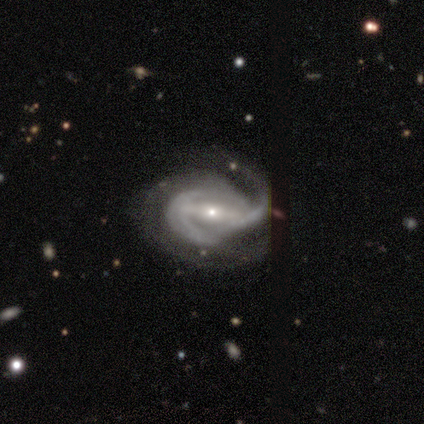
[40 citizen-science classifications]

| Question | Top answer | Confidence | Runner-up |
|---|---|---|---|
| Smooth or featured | featured or disk | 88% | star or artifact (12%) |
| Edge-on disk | no | 100% | — |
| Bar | strong | 51% | weak (43%) |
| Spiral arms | yes | 94% | no (6%) |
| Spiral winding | medium | 61% | loose (27%) |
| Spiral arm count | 2 | 64% | can't tell (21%) |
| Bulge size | small | 83% | moderate (14%) |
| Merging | none | 46% | major disturbance (31%) |